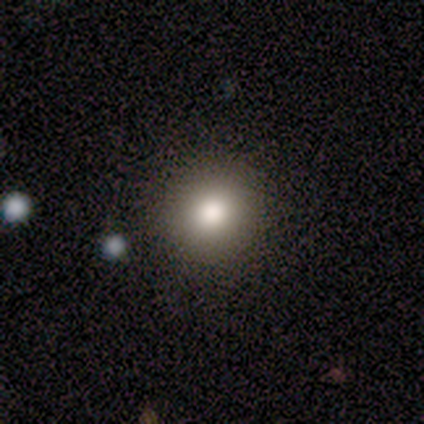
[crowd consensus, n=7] Q: Smooth or featured?
A: smooth (100%)
Q: How rounded?
A: round (86%); runner-up: in between (14%)
Q: Merging?
A: none (86%); runner-up: minor disturbance (14%)